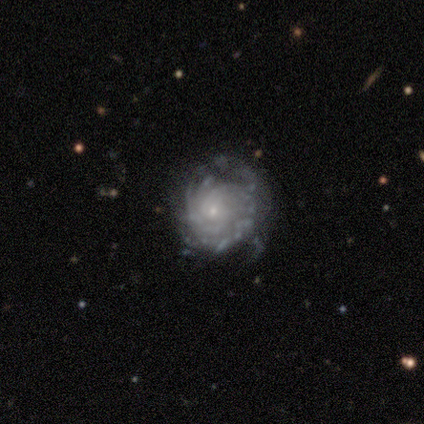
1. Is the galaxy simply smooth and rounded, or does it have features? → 87% featured or disk, 7% smooth, 6% star or artifact.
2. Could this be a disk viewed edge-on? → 97% no, 3% yes.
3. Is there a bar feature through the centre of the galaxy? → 85% no, 15% weak, 0% strong.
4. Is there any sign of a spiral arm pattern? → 86% yes, 14% no.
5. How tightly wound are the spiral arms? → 79% tight, 13% medium, 8% loose.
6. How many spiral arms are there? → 57% can't tell, 13% more than 4, 11% 2, 8% 3, 6% 1, 5% 4.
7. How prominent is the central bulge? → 84% small, 8% none, 7% moderate, 1% large, 0% dominant.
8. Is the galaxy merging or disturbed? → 53% none, 32% minor disturbance, 14% major disturbance, 1% merger.